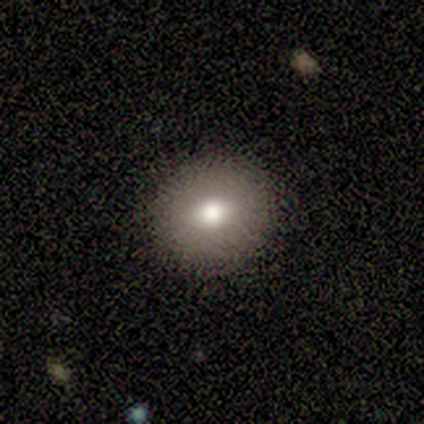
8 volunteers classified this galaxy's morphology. A smooth galaxy with no disk features (88%) that is round (71%).

Vote fractions:
- Smooth or featured? smooth: 88% / star or artifact: 12% / featured or disk: 0%
- How rounded? round: 71% / in between: 29% / cigar-shaped: 0%
- Merging? none: 100% / minor disturbance: 0% / major disturbance: 0% / merger: 0%